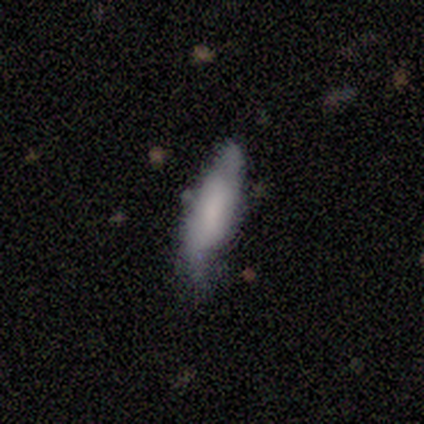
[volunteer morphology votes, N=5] smooth_or_featured: smooth (p=0.80) [alt: featured or disk p=0.20]
how_rounded: cigar-shaped (p=1.00)
merging: minor disturbance (p=0.80) [alt: none p=0.20]